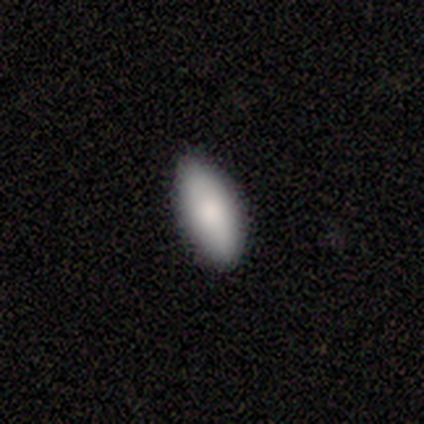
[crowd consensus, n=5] Morphology: type=smooth (80%); roundness=in between (100%); merging=none (80%).